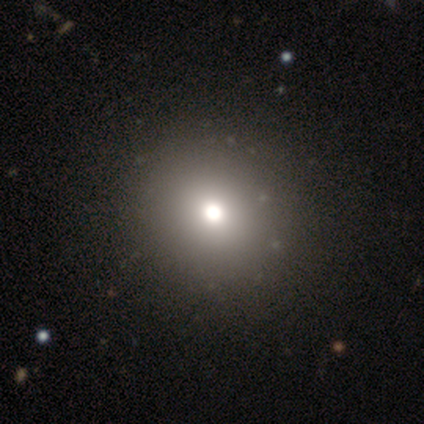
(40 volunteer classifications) smooth_or_featured: smooth (p=0.55) [alt: featured or disk p=0.23]
how_rounded: round (p=0.86) [alt: in between p=0.14]
merging: none (p=0.65) [alt: minor disturbance p=0.03]